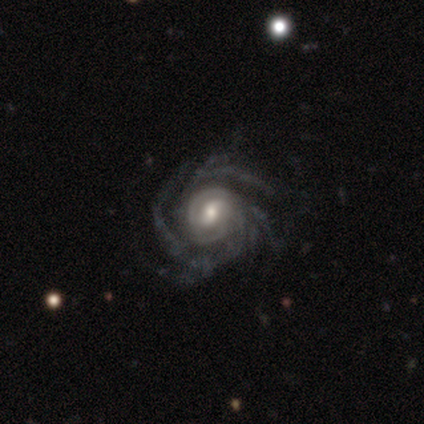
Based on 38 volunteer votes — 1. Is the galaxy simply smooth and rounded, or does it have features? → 87% featured or disk, 8% star or artifact, 5% smooth.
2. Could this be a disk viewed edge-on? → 97% no, 3% yes.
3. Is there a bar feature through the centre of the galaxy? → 44% no, 38% weak, 19% strong.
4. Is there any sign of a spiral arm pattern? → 100% yes, 0% no.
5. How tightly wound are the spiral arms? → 75% tight, 19% medium, 6% loose.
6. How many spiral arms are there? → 34% can't tell, 19% 4, 19% more than 4, 16% 3, 9% 2, 3% 1.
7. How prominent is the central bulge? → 50% moderate, 34% small, 16% large, 0% dominant, 0% none.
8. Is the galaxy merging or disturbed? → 71% none, 20% minor disturbance, 9% major disturbance, 0% merger.